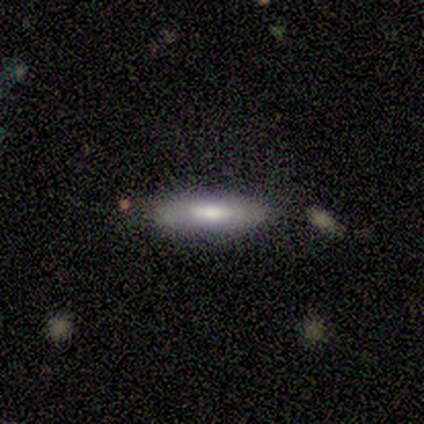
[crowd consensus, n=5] Smooth or featured: featured or disk — 60% (smooth — 40%)
Edge-on disk: yes — 67% (no — 33%)
Edge-on bulge: none — 50% (tied with rounded — 50%)
Merging: none — 100%